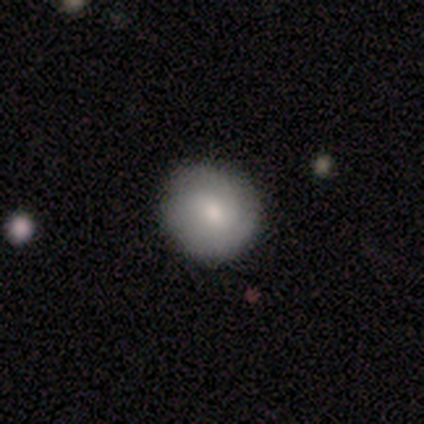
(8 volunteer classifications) Smooth or featured? smooth (75%)
How rounded? round (100%)
Merging? none (100%)